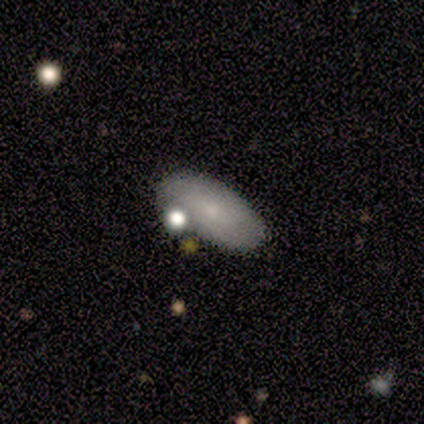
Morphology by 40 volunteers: Smooth or featured? 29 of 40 (72%) said smooth. How rounded? 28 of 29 (97%) said in between. Merging? 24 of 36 (67%) said none.